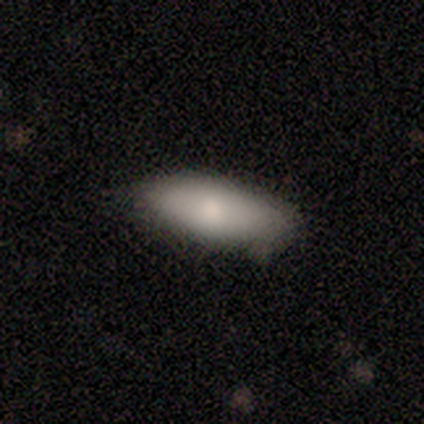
smooth_or_featured: smooth (p=0.80) [alt: featured or disk p=0.20]
how_rounded: in between (p=1.00)
merging: minor disturbance (p=0.60) [alt: none p=0.40]